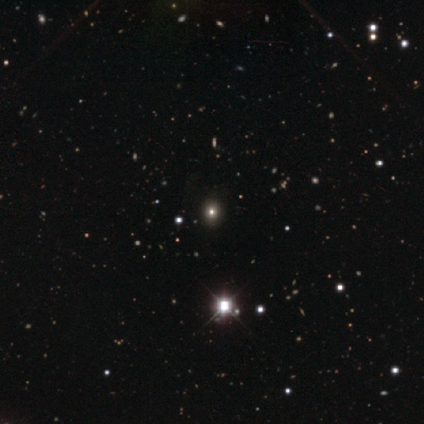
Smooth or featured?
  - smooth: 60% *
  - featured or disk: 20%
  - star or artifact: 20%
How rounded?
  - round: 100% *
  - in between: 0%
  - cigar-shaped: 0%
Merging?
  - none: 75% *
  - minor disturbance: 25%
  - major disturbance: 0%
  - merger: 0%